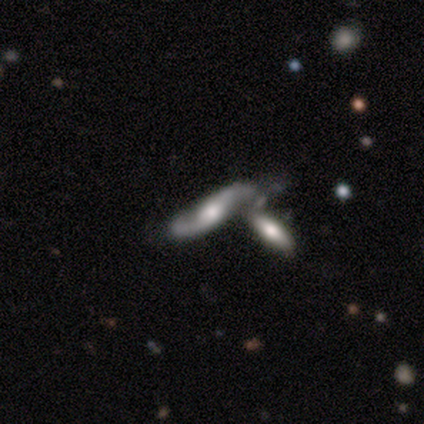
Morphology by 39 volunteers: A featured or disk galaxy (72%) with no bar (70%), 2 (95%) loose (55%) spiral arms (96%) and a moderate central bulge (35%).

Vote fractions:
- Smooth or featured? featured or disk: 72% / smooth: 15% / star or artifact: 13%
- Edge-on disk? no: 82% / yes: 18%
- Bar? no: 70% / weak: 26% / strong: 4%
- Spiral arms? yes: 96% / no: 4%
- Spiral winding? loose: 55% / medium: 32% / tight: 14%
- Spiral arm count? 2: 95% / can't tell: 5% / 1: 0% / 3: 0% / 4: 0% / more than 4: 0%
- Bulge size? moderate: 35% / large: 26% / small: 26% / none: 9% / dominant: 4%
- Merging? merger: 62% / none: 18% / minor disturbance: 18% / major disturbance: 3%